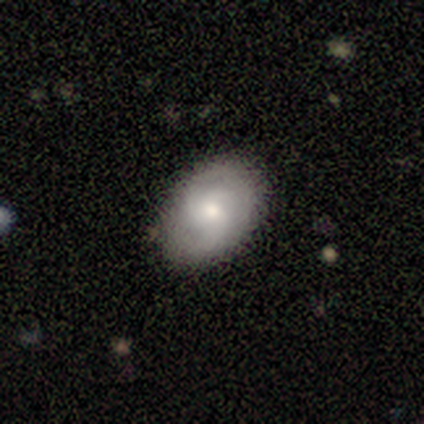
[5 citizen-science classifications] Smooth or featured: smooth — 40% (tied with featured or disk — 40%)
How rounded: round — 50% (tied with in between — 50%)
Merging: none — 100%